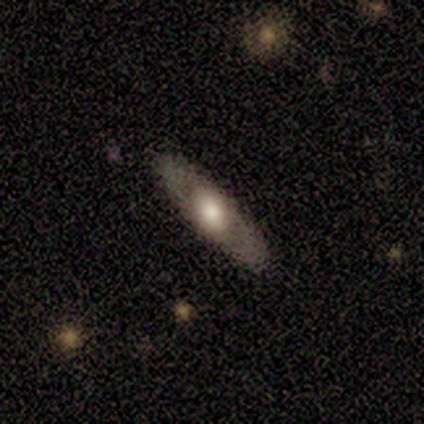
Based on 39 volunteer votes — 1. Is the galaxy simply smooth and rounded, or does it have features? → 56% featured or disk, 41% smooth, 3% star or artifact.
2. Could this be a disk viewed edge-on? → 68% no, 32% yes.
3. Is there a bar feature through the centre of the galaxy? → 87% no, 13% weak, 0% strong.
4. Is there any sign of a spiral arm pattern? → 80% no, 20% yes.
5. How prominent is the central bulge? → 40% moderate, 33% large, 20% dominant, 7% small, 0% none.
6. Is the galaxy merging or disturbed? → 100% none, 0% minor disturbance, 0% major disturbance, 0% merger.